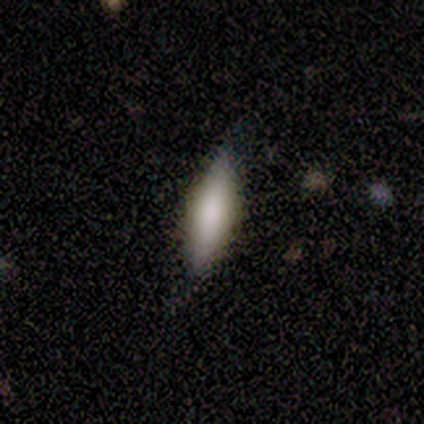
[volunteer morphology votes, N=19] type=smooth (84%); roundness=in between (50%, tied with cigar-shaped); merging=none (83%).